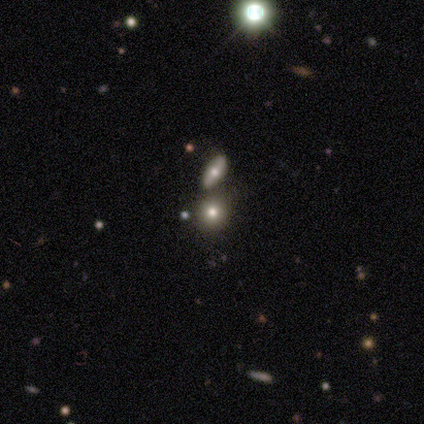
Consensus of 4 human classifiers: Overall: smooth (50%; featured or disk 25%). How rounded: round (100%). Merging: none (67%; merger 33%).